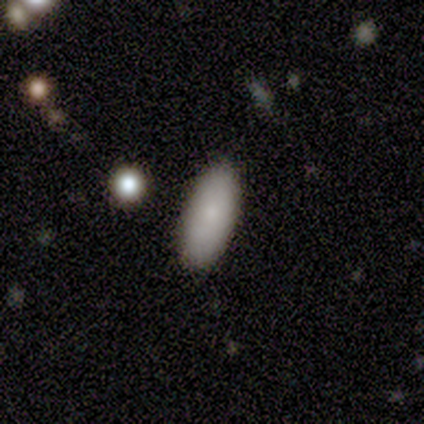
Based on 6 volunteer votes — smooth 100%, featured or disk 0%, star or artifact 0%. Down the decision tree: how rounded — in between (83%); merging — none (67%).